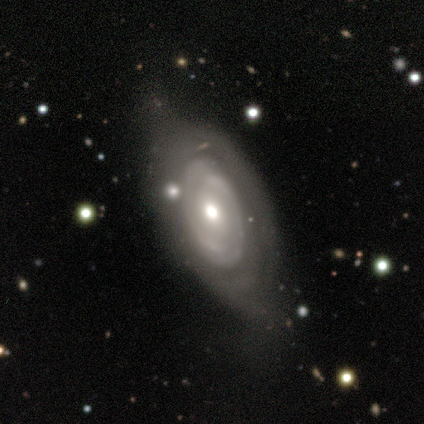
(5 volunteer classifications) A featured or disk galaxy (100%) with no bar (75%), 2 (67%) tight (100%) spiral arms (75%) and a moderate central bulge (75%). Merging: none (60%).